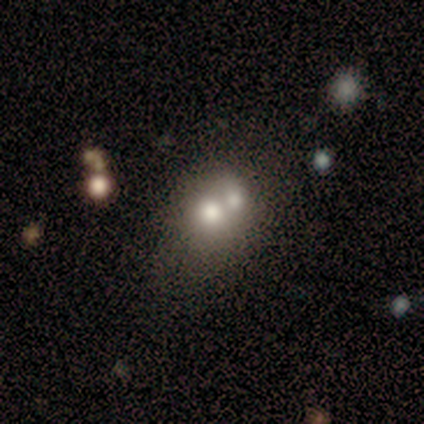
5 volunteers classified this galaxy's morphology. Smooth or featured? featured or disk (60%)
Edge-on disk? no (100%)
Bar? no (100%)
Spiral arms? no (100%)
Bulge size? small (67%)
Merging? none (40%, tied with merger)